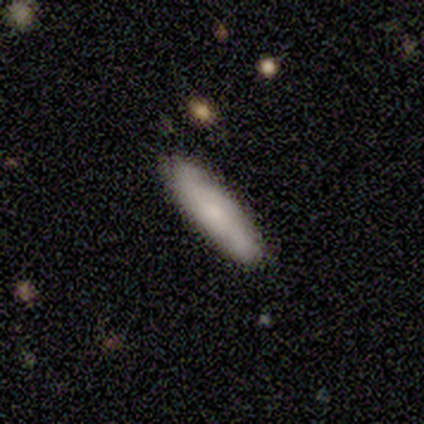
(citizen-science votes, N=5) A smooth galaxy with no disk features (80%) that is cigar-shaped (100%).

Vote fractions:
- Smooth or featured? smooth: 80% / featured or disk: 20% / star or artifact: 0%
- How rounded? cigar-shaped: 100% / round: 0% / in between: 0%
- Merging? none: 80% / minor disturbance: 20% / major disturbance: 0% / merger: 0%